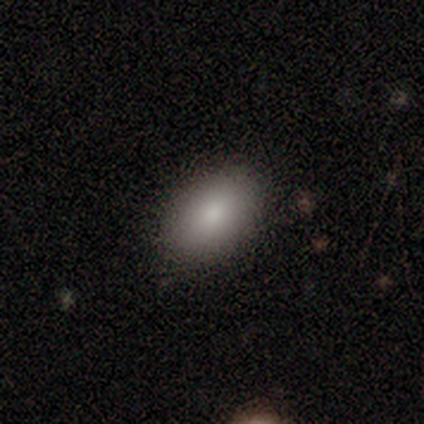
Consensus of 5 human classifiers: smooth 100%, featured or disk 0%, star or artifact 0%. Down the decision tree: how rounded — in between (80%); merging — none (100%).